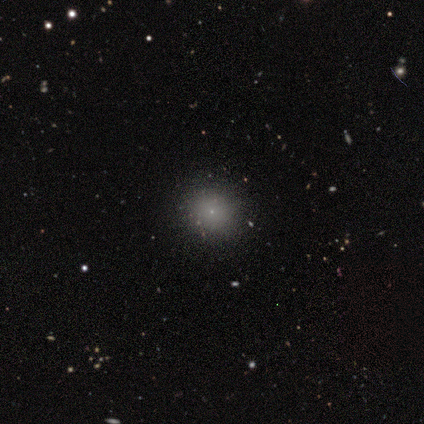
Overall: smooth (71%). How rounded: round (96%). Merging: none (90%).